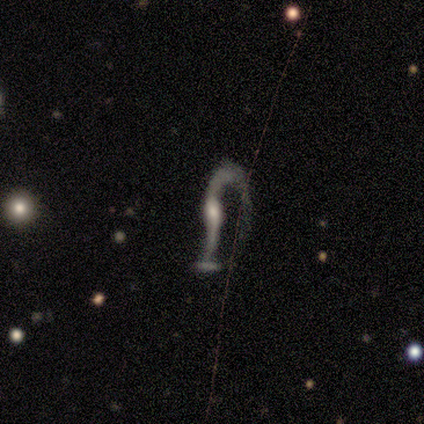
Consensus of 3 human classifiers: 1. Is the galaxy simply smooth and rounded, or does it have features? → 100% featured or disk, 0% smooth, 0% star or artifact.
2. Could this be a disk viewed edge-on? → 100% no, 0% yes.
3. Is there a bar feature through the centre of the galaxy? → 100% no, 0% strong, 0% weak.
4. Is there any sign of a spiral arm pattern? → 100% yes, 0% no.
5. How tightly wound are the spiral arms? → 67% loose, 33% medium, 0% tight.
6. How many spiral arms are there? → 100% 2, 0% 1, 0% 3, 0% 4, 0% more than 4, 0% can't tell.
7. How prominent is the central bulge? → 67% moderate, 33% small, 0% dominant, 0% large, 0% none.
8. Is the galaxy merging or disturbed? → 67% major disturbance, 33% minor disturbance, 0% none, 0% merger.